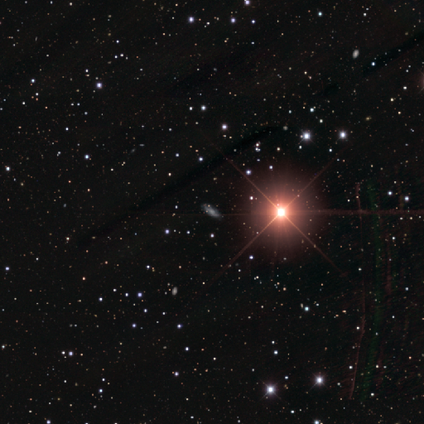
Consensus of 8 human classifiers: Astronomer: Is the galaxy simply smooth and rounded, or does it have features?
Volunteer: featured or disk — 38%, tied with star or artifact at 38%.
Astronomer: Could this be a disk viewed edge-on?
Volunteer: no — 100%.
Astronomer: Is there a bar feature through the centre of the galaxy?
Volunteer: no — 67%.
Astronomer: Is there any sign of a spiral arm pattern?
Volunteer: yes — 67%.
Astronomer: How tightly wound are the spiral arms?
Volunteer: tight — 50%, tied with medium at 50%.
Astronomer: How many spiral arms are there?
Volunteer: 2 — 100%.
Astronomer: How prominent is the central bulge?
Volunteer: moderate — 100%.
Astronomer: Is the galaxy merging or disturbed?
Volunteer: none — 60% (runner-up: minor disturbance, 40%).